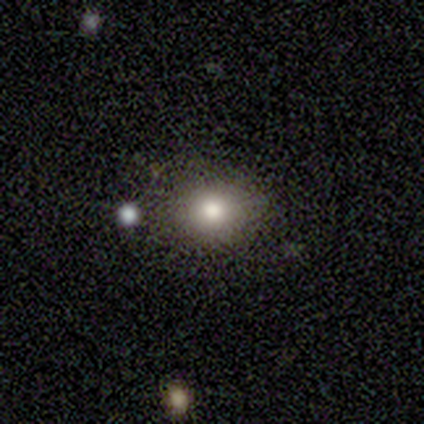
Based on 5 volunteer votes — This appears to be a smooth galaxy with no disk features (60%) that is in between round and cigar-shaped (67%). Merging: none (75%).